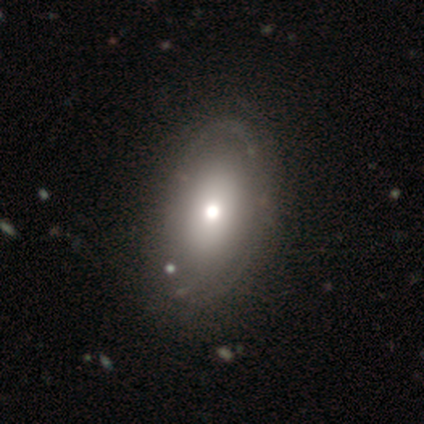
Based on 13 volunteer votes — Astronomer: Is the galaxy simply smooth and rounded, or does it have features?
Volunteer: smooth — 62% (runner-up: featured or disk, 38%).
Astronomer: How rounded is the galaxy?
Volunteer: in between — 88%.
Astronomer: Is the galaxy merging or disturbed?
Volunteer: none — 85%.